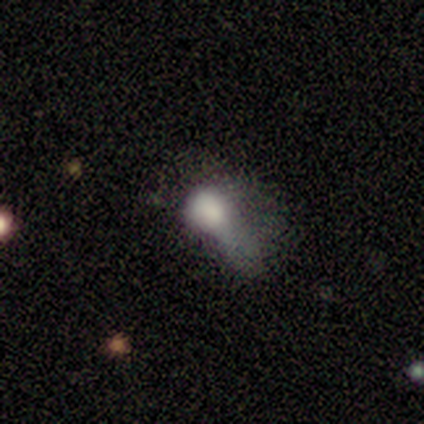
smooth-or-featured: smooth: 80% | star or artifact: 20% | featured or disk: 0%
  how-rounded: in between: 75% | round: 25% | cigar-shaped: 0%
  merging: major disturbance: 50% | none: 25% | minor disturbance: 25% | merger: 0%